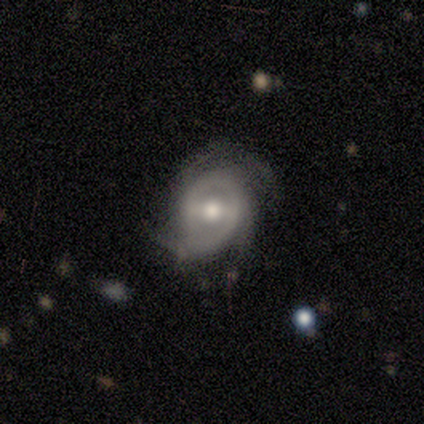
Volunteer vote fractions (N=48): smooth-or-featured: featured or disk: 83% | smooth: 12% | star or artifact: 4%
  disk-edge-on: no: 100% | yes: 0%
    bar: weak: 48% | strong: 40% | no: 12%
    has-spiral-arms: yes: 85% | no: 15%
      spiral-winding: tight: 53% | medium: 32% | loose: 15%
      spiral-arm-count: 2: 35% | 3: 26% | can't tell: 21% | 4: 12% | 1: 6% | more than 4: 0%
    bulge-size: moderate: 65% | small: 20% | large: 12% | none: 2% | dominant: 0%
  merging: none: 65% | minor disturbance: 26% | major disturbance: 4% | merger: 4%